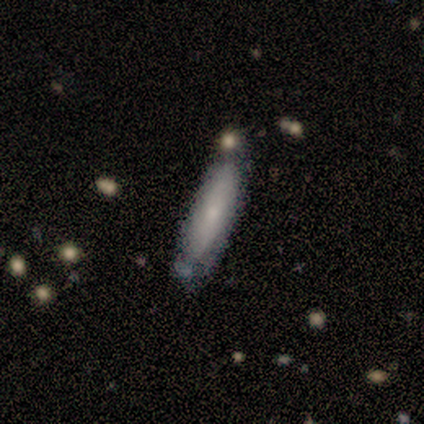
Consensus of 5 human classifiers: Smooth or featured? 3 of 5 (60%) said smooth. How rounded? 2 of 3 (67%) said cigar-shaped. Merging? 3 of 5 (60%) said none.